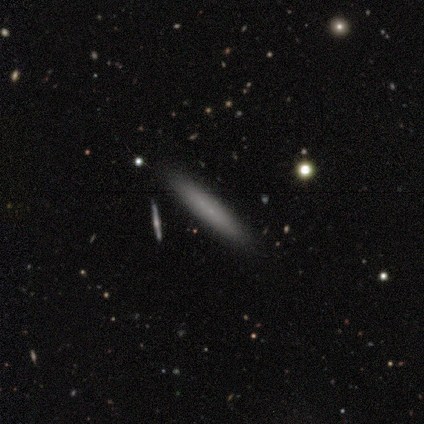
Overall: smooth (55%; featured or disk 45%). How rounded: cigar-shaped (83%). Merging: none (91%).